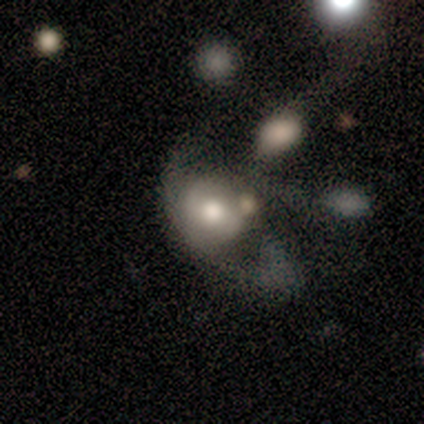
smooth_or_featured: featured or disk (p=0.67) [alt: smooth p=0.33]
disk_edge_on: no (p=1.00)
bar: strong (p=0.50) [tied with: no p=0.50]
has_spiral_arms: yes (p=0.50) [tied with: no p=0.50]
spiral_winding: loose (p=1.00)
spiral_arm_count: 1 (p=1.00)
bulge_size: large (p=0.50) [tied with: moderate p=0.50]
merging: minor disturbance (p=0.33) [tied with: major disturbance p=0.33, merger p=0.33]